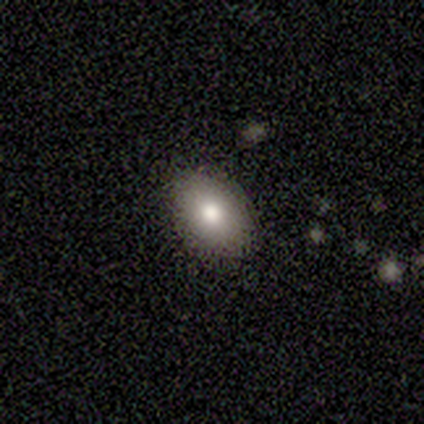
smooth_or_featured: smooth (p=0.75) [alt: featured or disk p=0.25]
how_rounded: in between (p=1.00)
merging: none (p=1.00)